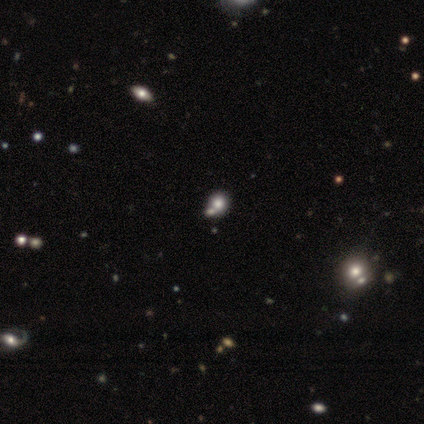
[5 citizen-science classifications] Morphology: type=smooth (80%); roundness=round (100%); merging=merger (75%).